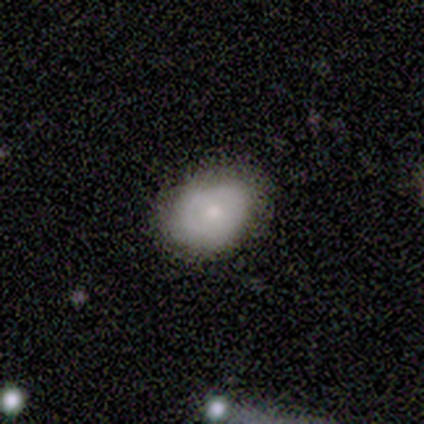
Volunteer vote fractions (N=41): This appears to be a smooth galaxy with no disk features (83%) that is in between round and cigar-shaped (79%). Merging: none (79%).